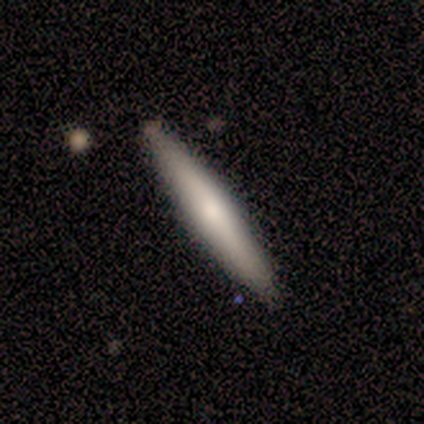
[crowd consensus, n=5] Q: Smooth or featured?
A: featured or disk (60%); runner-up: smooth (40%)
Q: Edge-on disk?
A: yes (100%)
Q: Edge-on bulge?
A: rounded (100%)
Q: Merging?
A: none (100%)